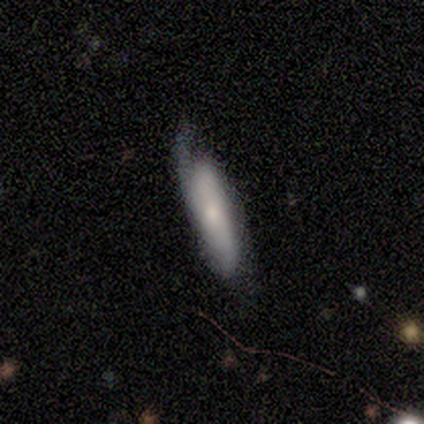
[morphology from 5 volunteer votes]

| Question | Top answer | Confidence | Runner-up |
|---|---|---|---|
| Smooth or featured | featured or disk | 60% | smooth (40%) |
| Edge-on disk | yes | 67% | no (33%) |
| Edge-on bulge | none | 50% | tied: rounded (50%) |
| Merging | none | 60% | minor disturbance (20%) |